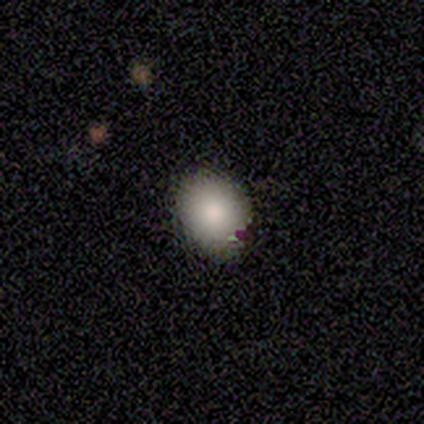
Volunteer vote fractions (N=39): Smooth or featured?
  - smooth: 79% *
  - featured or disk: 13%
  - star or artifact: 8%
How rounded?
  - round: 58% *
  - in between: 42%
  - cigar-shaped: 0%
Merging?
  - none: 64% *
  - minor disturbance: 8%
  - major disturbance: 0%
  - merger: 0%